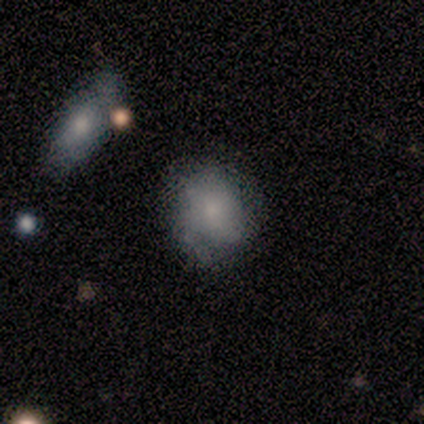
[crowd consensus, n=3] Q: Smooth or featured?
A: featured or disk (100%)
Q: Edge-on disk?
A: no (100%)
Q: Bar?
A: weak (67%); runner-up: no (33%)
Q: Spiral arms?
A: yes (67%); runner-up: no (33%)
Q: Spiral winding?
A: tight (100%)
Q: Spiral arm count?
A: 2 (50%); tied with: can't tell (50%)
Q: Bulge size?
A: moderate (67%); runner-up: large (33%)
Q: Merging?
A: none (67%); runner-up: minor disturbance (33%)